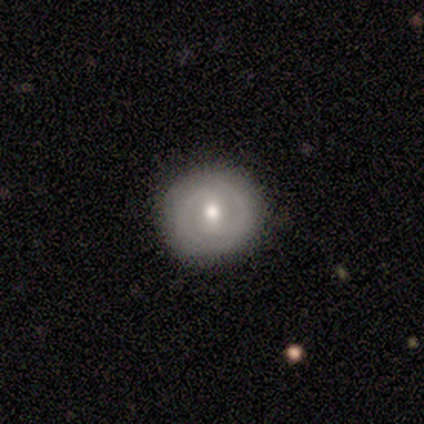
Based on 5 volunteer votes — This appears to be a featured or disk galaxy (80%) with no bar (100%), 2 (50%, tied with can't tell) tight (50%, tied with medium) spiral arms (50%, tied with no) and a small central bulge (75%). Merging: none (100%).